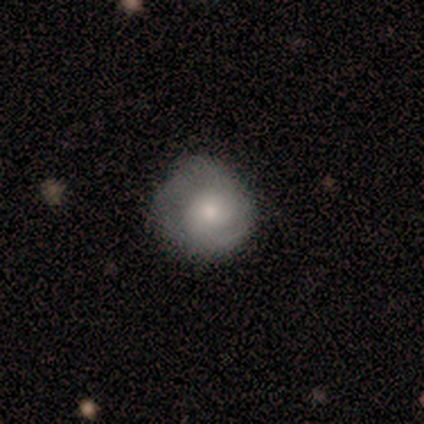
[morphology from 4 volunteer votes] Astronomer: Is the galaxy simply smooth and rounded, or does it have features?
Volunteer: smooth — 75%.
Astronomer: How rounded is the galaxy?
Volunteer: round — 100%.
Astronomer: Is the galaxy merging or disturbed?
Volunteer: none — 100%.